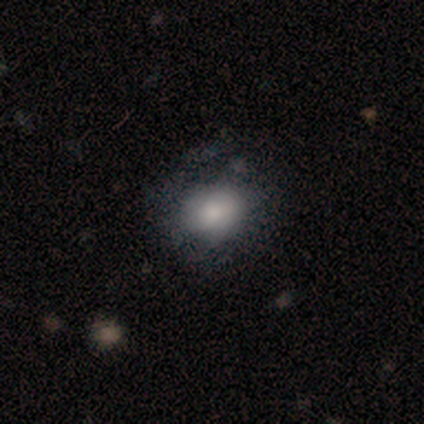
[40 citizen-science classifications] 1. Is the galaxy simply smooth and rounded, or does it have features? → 62% smooth, 25% featured or disk, 12% star or artifact.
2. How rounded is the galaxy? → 64% round, 36% in between, 0% cigar-shaped.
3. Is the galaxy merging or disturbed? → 40% none, 20% minor disturbance, 6% merger, 0% major disturbance.